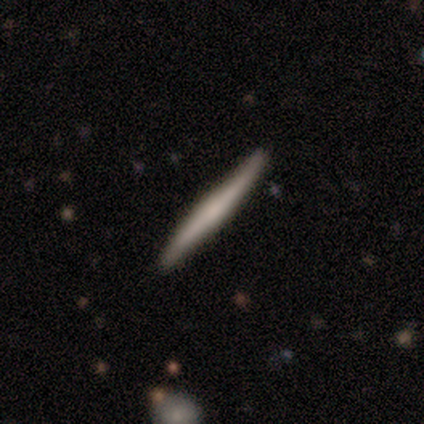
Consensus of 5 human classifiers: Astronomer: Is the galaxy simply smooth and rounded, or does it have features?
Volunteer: featured or disk — 80%.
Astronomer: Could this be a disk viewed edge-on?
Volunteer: yes — 100%.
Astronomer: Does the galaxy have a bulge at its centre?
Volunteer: none — 75%.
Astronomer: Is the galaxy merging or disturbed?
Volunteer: none — 100%.